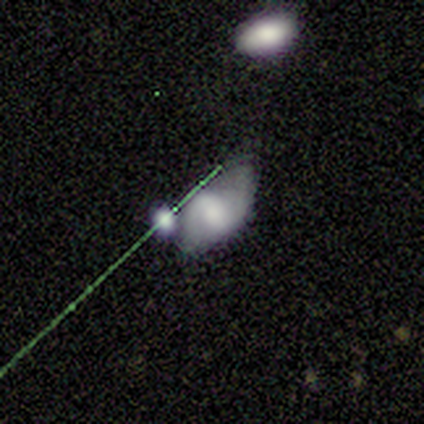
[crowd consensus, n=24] Smooth or featured? 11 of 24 (46%) said featured or disk. Edge-on disk? 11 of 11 (100%) said no. Bar? 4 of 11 (36%, tied with no) said weak. Spiral arms? 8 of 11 (73%) said yes. Spiral winding? 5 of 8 (62%) said medium. Spiral arm count? 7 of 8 (88%) said 2. Bulge size? 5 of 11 (45%) said moderate. Merging? 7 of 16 (44%) said none.